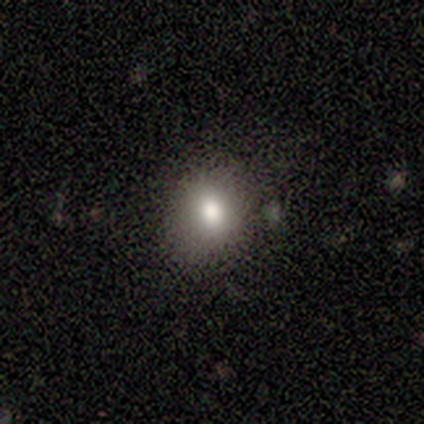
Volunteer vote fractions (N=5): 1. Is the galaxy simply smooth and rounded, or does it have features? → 80% smooth, 20% star or artifact, 0% featured or disk.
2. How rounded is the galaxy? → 75% round, 25% in between, 0% cigar-shaped.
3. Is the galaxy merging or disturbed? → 75% none, 25% minor disturbance, 0% major disturbance, 0% merger.